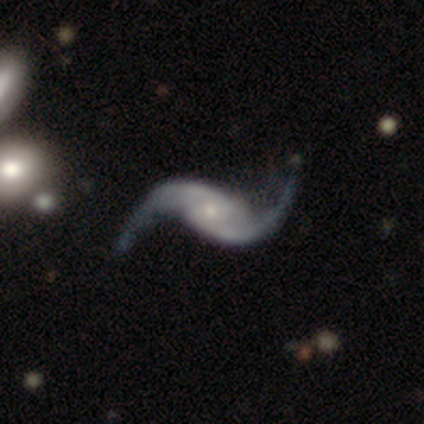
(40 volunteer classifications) This is clearly a featured or disk galaxy (92%). It is clearly not viewed edge-on (100%). Bar: possibly no (57%). Spiral arm pattern: clearly yes (97%). Spiral arm count: clearly 2 (100%). Spiral winding: clearly loose (97%). Central bulge: likely small (68%). Merging: likely none (68%).